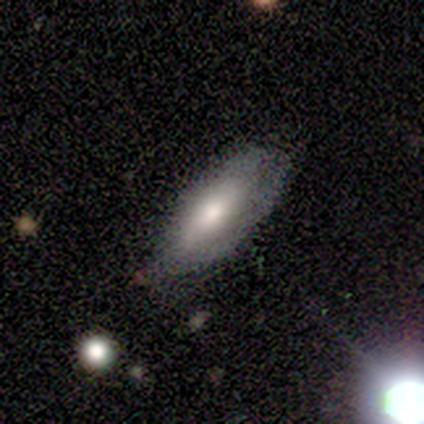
smooth_or_featured: smooth (p=0.40) [tied with: featured or disk p=0.40]
how_rounded: in between (p=0.50) [tied with: cigar-shaped p=0.50]
merging: none (p=0.75) [alt: major disturbance p=0.25]